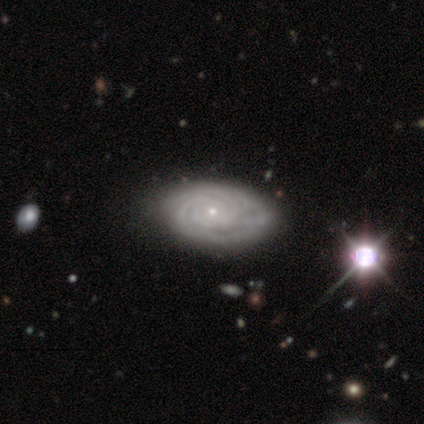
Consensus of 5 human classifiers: smooth-or-featured: featured or disk: 80% | smooth: 20% | star or artifact: 0%
  disk-edge-on: no: 75% | yes: 25%
    bar: no: 100% | strong: 0% | weak: 0%
    has-spiral-arms: yes: 100% | no: 0%
      spiral-winding: tight: 67% | medium: 33% | loose: 0%
      spiral-arm-count: 4: 67% | can't tell: 33% | 1: 0% | 2: 0% | 3: 0% | more than 4: 0%
    bulge-size: small: 67% | moderate: 33% | dominant: 0% | large: 0% | none: 0%
  merging: none: 80% | merger: 20% | minor disturbance: 0% | major disturbance: 0%